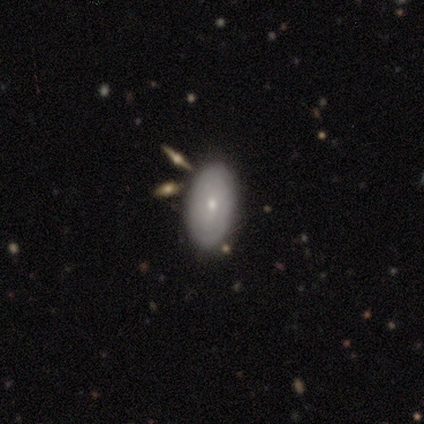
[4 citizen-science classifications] Overall: smooth (75%). How rounded: in between (100%). Merging: none (33%, tied with minor disturbance and merger).